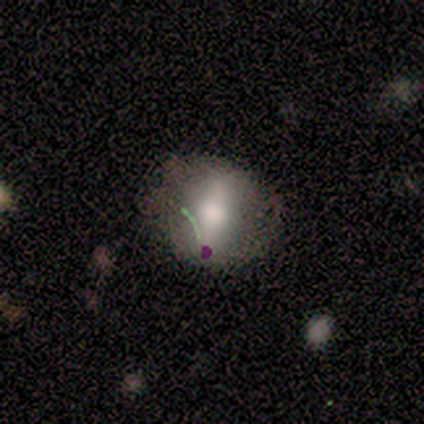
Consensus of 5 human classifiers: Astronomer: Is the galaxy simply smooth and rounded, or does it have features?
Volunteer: smooth — 60% (runner-up: featured or disk, 40%).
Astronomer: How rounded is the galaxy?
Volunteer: in between — 100%.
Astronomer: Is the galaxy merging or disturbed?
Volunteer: none — 80%.